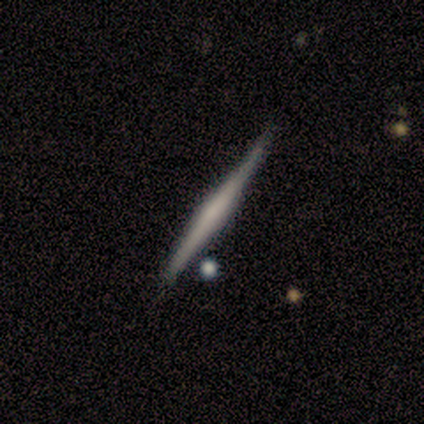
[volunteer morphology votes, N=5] Smooth or featured? 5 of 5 (100%) said featured or disk. Edge-on disk? 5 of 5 (100%) said yes. Edge-on bulge? 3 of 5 (60%) said none. Merging? 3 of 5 (60%) said none.